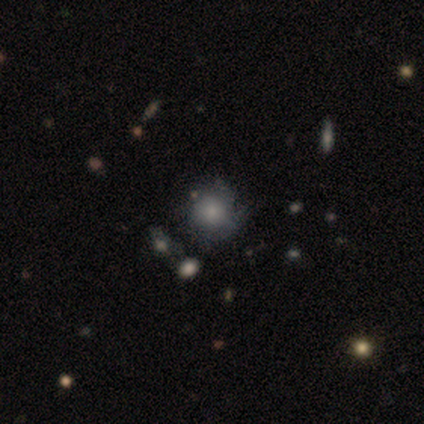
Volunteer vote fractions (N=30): This is possibly a smooth galaxy (50%). How rounded: clearly round (100%). Merging: possibly none (57%).